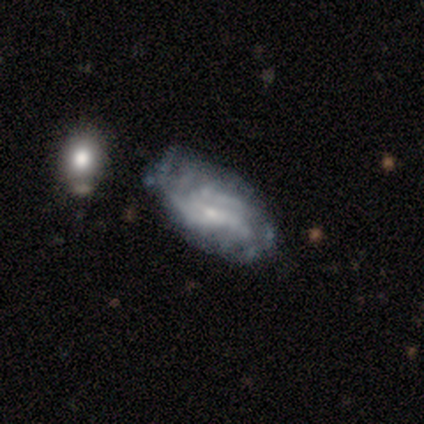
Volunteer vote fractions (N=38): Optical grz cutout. It shows a featured or disk galaxy (71%) with no bar (69%), tight (47%) spiral arms (58%) and a small central bulge (69%). Merging: none (46%).